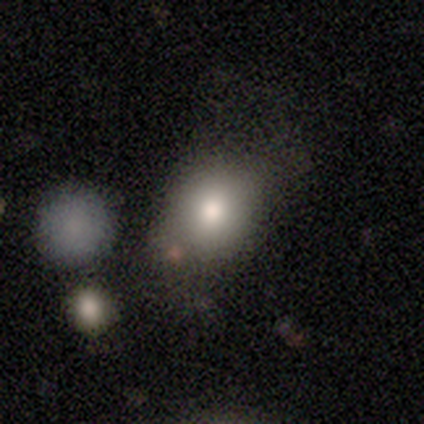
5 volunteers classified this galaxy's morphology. Volunteers were most divided on "how rounded" (2-way tie): round: 50%, in between: 50%, cigar-shaped: 0%. More confident: smooth or featured — smooth (80%); merging — none (60%).